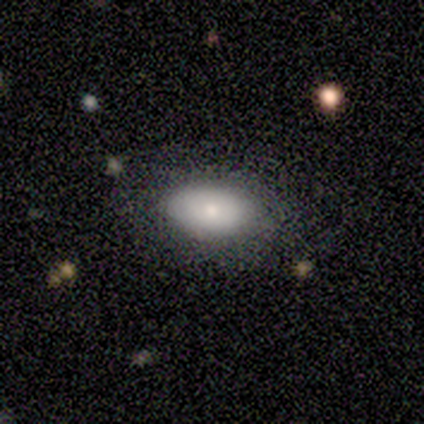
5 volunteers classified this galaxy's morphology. Q: Smooth or featured?
A: smooth (60%); runner-up: featured or disk (40%)
Q: How rounded?
A: in between (100%)
Q: Merging?
A: none (80%); runner-up: minor disturbance (20%)